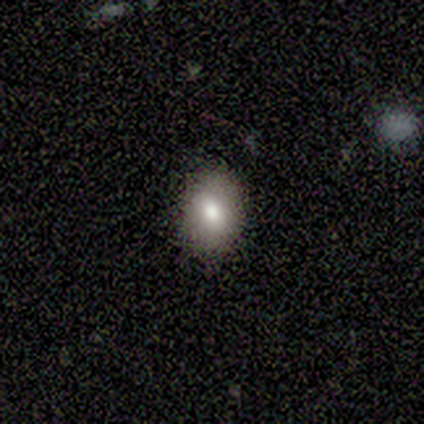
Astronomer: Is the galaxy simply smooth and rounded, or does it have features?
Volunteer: smooth — 80%.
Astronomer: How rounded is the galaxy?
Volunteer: in between — 75%.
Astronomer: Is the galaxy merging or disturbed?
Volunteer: none — 100%.